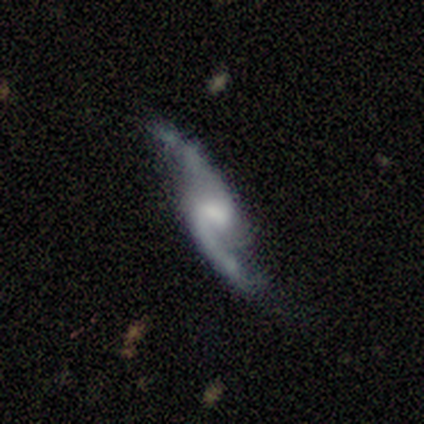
featured or disk 100%, smooth 0%, star or artifact 0%. Down the decision tree: edge-on disk — no (83%); bar — weak (60%); spiral arms — yes (100%); spiral arm count — 2 (80%); spiral winding — loose (80%); bulge size — small (60%); merging — none (50%).